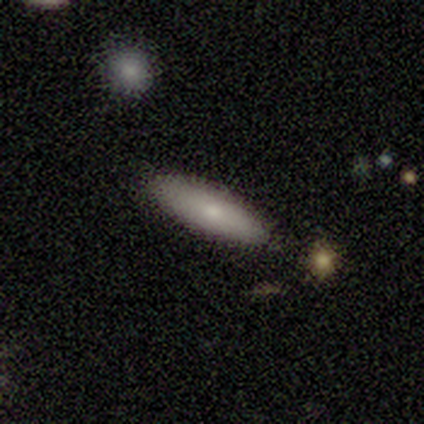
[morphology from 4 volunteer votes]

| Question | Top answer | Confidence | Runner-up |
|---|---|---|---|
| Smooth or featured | smooth | 75% | featured or disk (25%) |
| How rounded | cigar-shaped | 100% | — |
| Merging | none | 75% | minor disturbance (25%) |